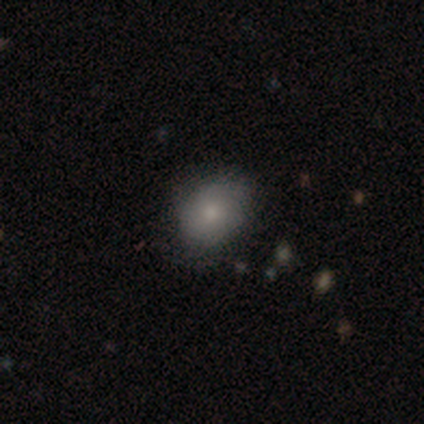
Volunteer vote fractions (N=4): Smooth or featured? smooth (100%)
How rounded? in between (75%)
Merging? none (50%, tied with minor disturbance)